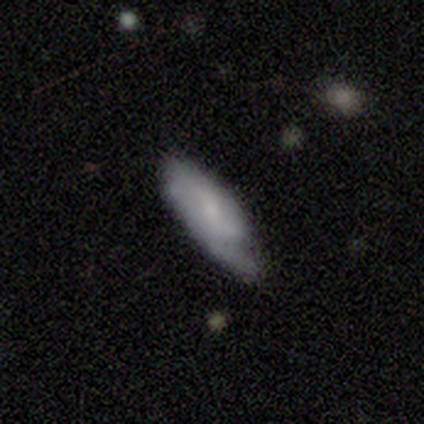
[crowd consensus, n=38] Morphology: type=smooth (50%, tied with featured or disk); roundness=in between (74%); merging=none (42%).